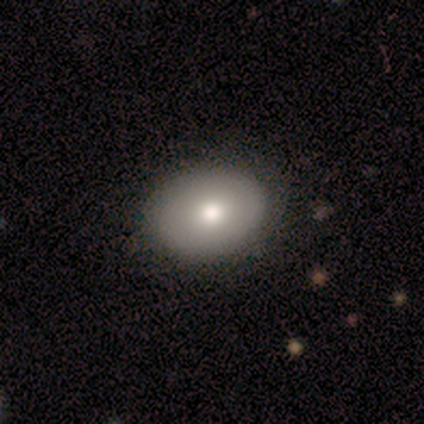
smooth 100%, featured or disk 0%, star or artifact 0%. Down the decision tree: how rounded — round (60%); merging — none (100%).